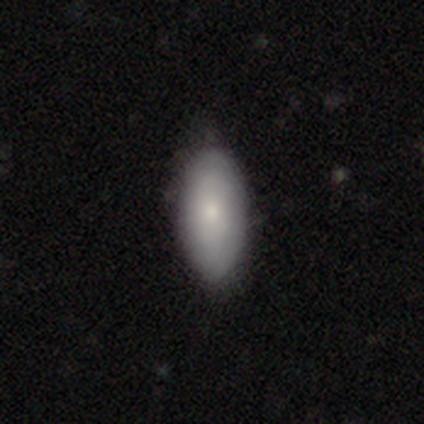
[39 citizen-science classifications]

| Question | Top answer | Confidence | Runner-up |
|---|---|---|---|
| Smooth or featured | smooth | 87% | featured or disk (13%) |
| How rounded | in between | 91% | cigar-shaped (6%) |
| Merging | none | 49% | minor disturbance (10%) |